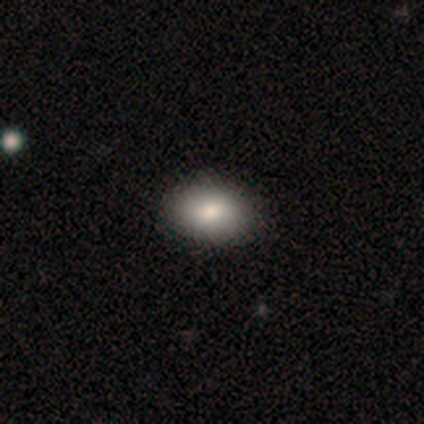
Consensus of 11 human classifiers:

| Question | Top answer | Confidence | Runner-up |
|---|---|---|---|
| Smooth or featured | smooth | 91% | featured or disk (9%) |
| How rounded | in between | 90% | cigar-shaped (10%) |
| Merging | none | 91% | major disturbance (9%) |